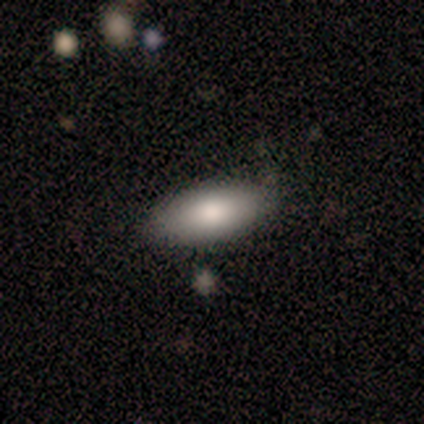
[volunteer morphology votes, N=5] A smooth galaxy with no disk features (80%) that is in between round and cigar-shaped (100%).

Vote fractions:
- Smooth or featured? smooth: 80% / featured or disk: 20% / star or artifact: 0%
- How rounded? in between: 100% / round: 0% / cigar-shaped: 0%
- Merging? none: 80% / minor disturbance: 20% / major disturbance: 0% / merger: 0%